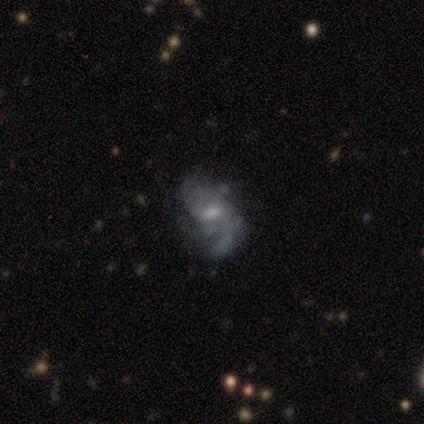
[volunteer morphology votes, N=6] Q: Smooth or featured?
A: featured or disk (83%); runner-up: smooth (17%)
Q: Edge-on disk?
A: no (100%)
Q: Bar?
A: weak (80%); runner-up: no (20%)
Q: Spiral arms?
A: yes (60%); runner-up: no (40%)
Q: Spiral winding?
A: loose (67%); runner-up: medium (33%)
Q: Spiral arm count?
A: 2 (67%); runner-up: 4 (33%)
Q: Bulge size?
A: small (60%); runner-up: moderate (40%)
Q: Merging?
A: major disturbance (50%); runner-up: none (33%)